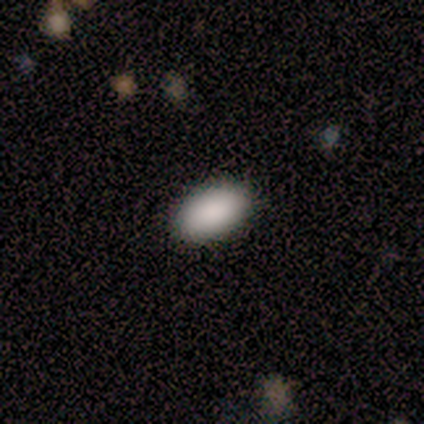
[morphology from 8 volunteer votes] smooth 75%, star or artifact 25%, featured or disk 0%. Down the decision tree: how rounded — in between (83%); merging — none (100%).